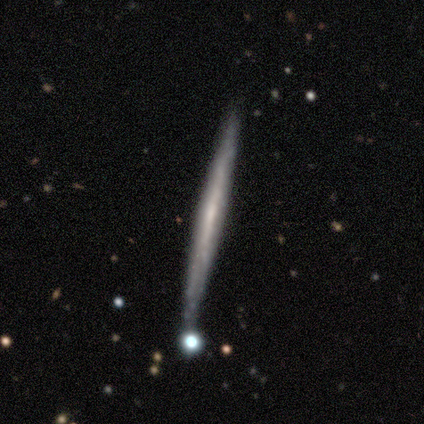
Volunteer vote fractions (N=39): This appears to be a featured or disk galaxy (62%) viewed edge-on (96%) with no central bulge (87%). Merging: none (89%).